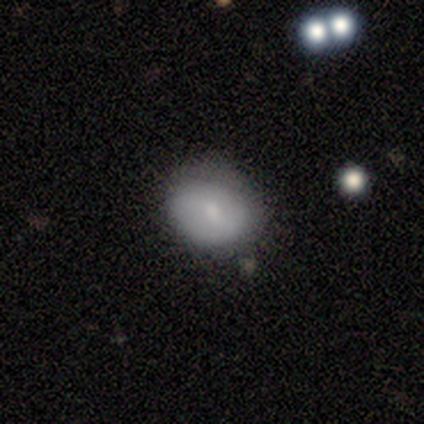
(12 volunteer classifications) A smooth galaxy with no disk features (67%) that is in between round and cigar-shaped (62%).

Vote fractions:
- Smooth or featured? smooth: 67% / featured or disk: 17% / star or artifact: 17%
- How rounded? in between: 62% / round: 38% / cigar-shaped: 0%
- Merging? none: 60% / minor disturbance: 40% / major disturbance: 0% / merger: 0%